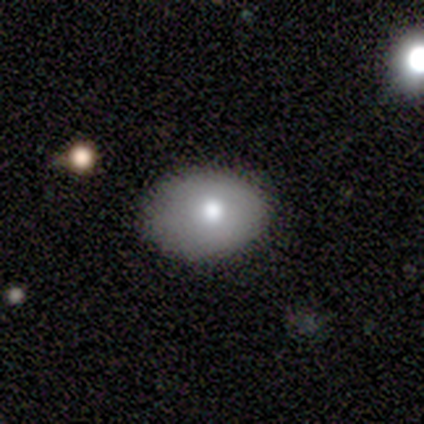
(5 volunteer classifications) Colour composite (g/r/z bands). It shows a smooth galaxy with no disk features (80%) that is in between round and cigar-shaped (75%). Merging: none (100%).